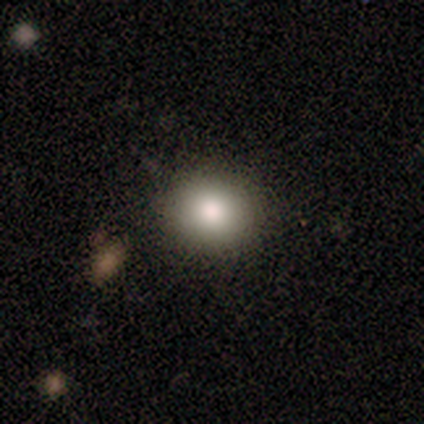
A smooth galaxy with no disk features (100%) that is round (75%). Merging: none (75%).